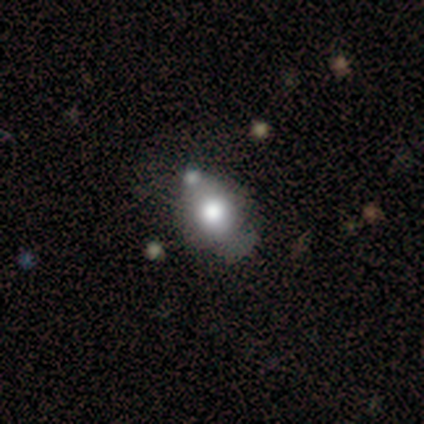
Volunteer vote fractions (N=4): Morphology: type=smooth (75%); roundness=round (67%); merging=none (100%).